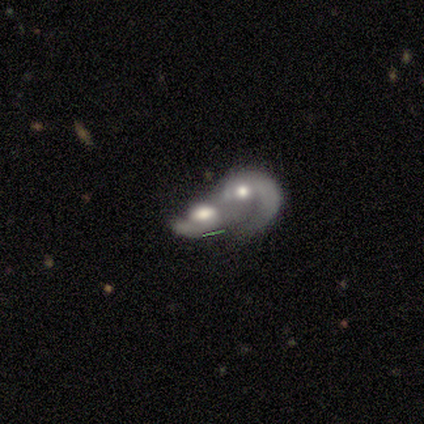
Smooth or featured? featured or disk (100%)
Edge-on disk? no (80%)
Bar? weak (50%, tied with no)
Spiral arms? yes (75%)
Spiral winding? loose (67%)
Spiral arm count? 2 (67%)
Bulge size? moderate (75%)
Merging? merger (100%)